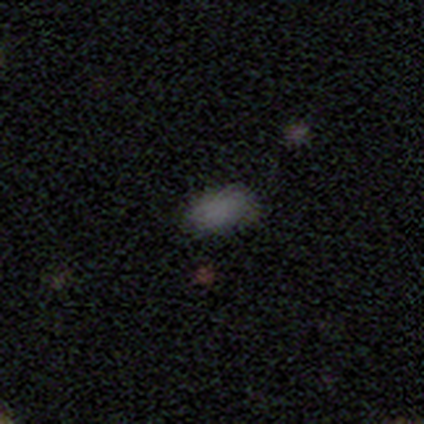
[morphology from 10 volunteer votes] Smooth or featured? smooth (80%)
How rounded? in between (100%)
Merging? none (88%)